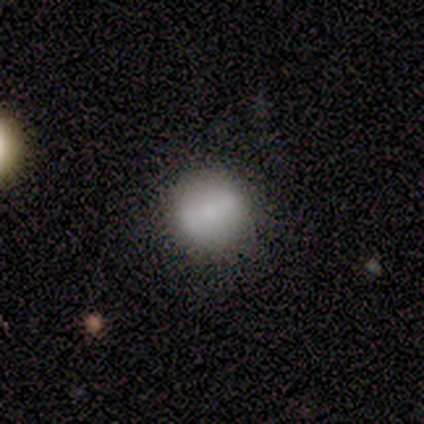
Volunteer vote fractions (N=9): Morphology: type=smooth (78%); roundness=round (86%); merging=none (88%).